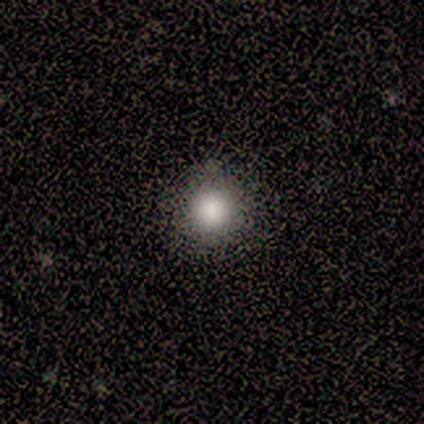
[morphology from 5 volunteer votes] A smooth galaxy with no disk features (80%) that is round (100%). Merging: none (100%).